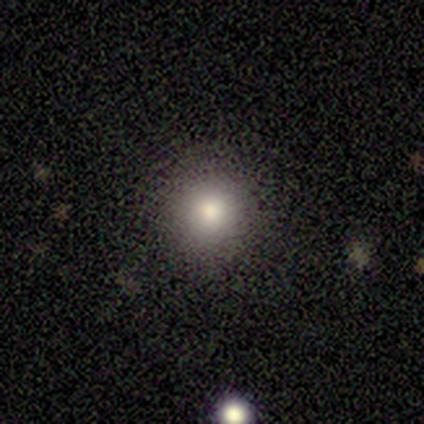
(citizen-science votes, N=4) Q: Smooth or featured?
A: smooth (75%); runner-up: star or artifact (25%)
Q: How rounded?
A: round (100%)
Q: Merging?
A: none (100%)